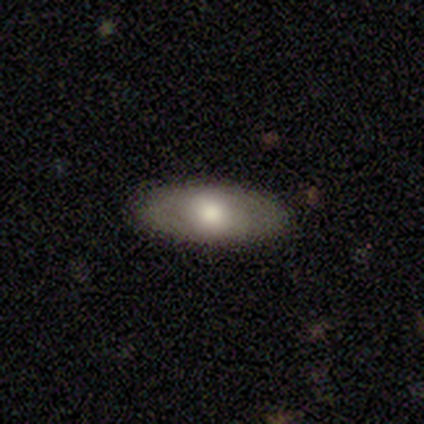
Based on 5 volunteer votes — Q: Smooth or featured?
A: smooth (40%); tied with: featured or disk (40%)
Q: How rounded?
A: in between (50%); tied with: cigar-shaped (50%)
Q: Merging?
A: none (75%); runner-up: minor disturbance (25%)